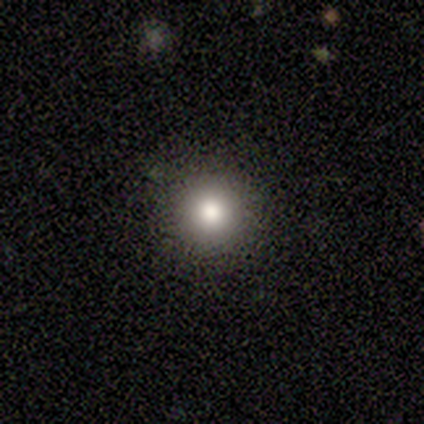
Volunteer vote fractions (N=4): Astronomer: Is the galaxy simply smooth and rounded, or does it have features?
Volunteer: smooth — 100%.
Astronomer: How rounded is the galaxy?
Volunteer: round — 100%.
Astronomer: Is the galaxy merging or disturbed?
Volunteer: none — 100%.